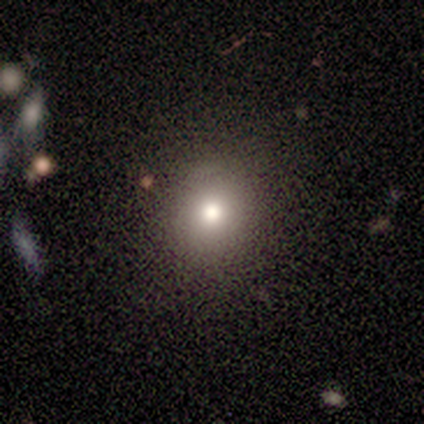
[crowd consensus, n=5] Morphology: type=smooth (60%); roundness=round (100%); merging=none (100%).